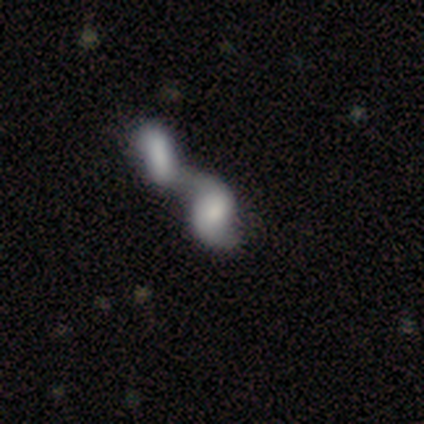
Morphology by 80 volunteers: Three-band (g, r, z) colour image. It shows a featured or disk galaxy (66%) with no bar (71%), 2 (84%) loose (65%) spiral arms (71%) and no central bulge (33%). Merging: merger (88%).